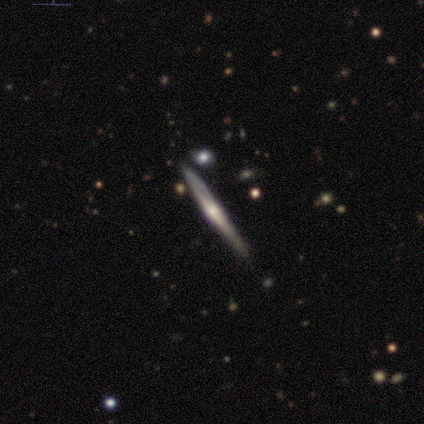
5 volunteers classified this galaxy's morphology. Smooth or featured? featured or disk (80%)
Edge-on disk? yes (100%)
Edge-on bulge? rounded (100%)
Merging? none (100%)